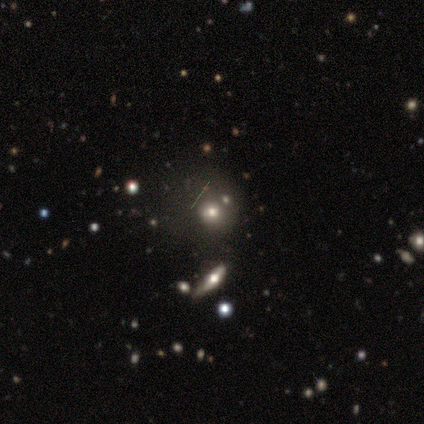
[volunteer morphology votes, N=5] Smooth or featured? smooth (60%)
How rounded? round (100%)
Merging? none (50%)